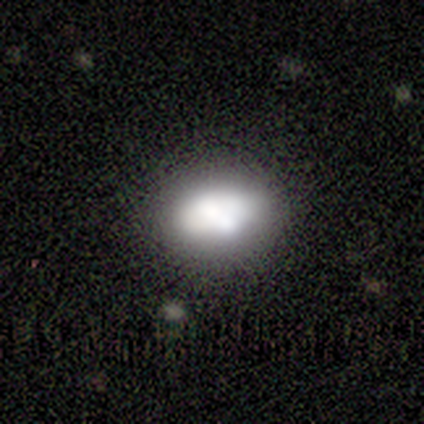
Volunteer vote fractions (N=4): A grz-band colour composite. It shows a smooth galaxy with no disk features (100%) that is in between round and cigar-shaped (100%). Merging: none (100%).